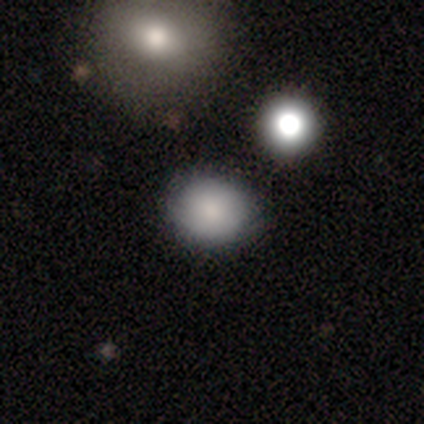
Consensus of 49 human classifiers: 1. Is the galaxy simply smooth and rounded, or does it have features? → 86% smooth, 8% star or artifact, 6% featured or disk.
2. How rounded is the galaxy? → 67% round, 33% in between, 0% cigar-shaped.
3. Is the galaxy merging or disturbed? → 76% none, 18% minor disturbance, 4% merger, 2% major disturbance.